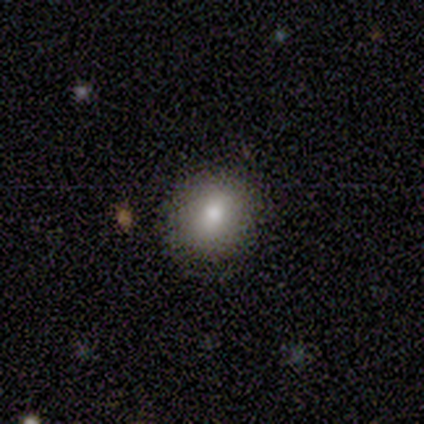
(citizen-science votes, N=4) Smooth or featured? smooth (100%)
How rounded? round (75%)
Merging? none (100%)